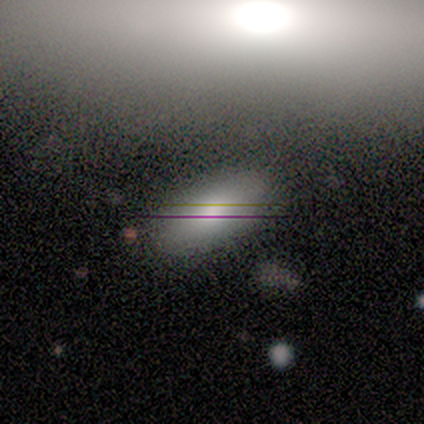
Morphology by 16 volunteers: Q: Smooth or featured?
A: smooth (69%); runner-up: star or artifact (19%)
Q: How rounded?
A: in between (100%)
Q: Merging?
A: none (92%); runner-up: minor disturbance (8%)